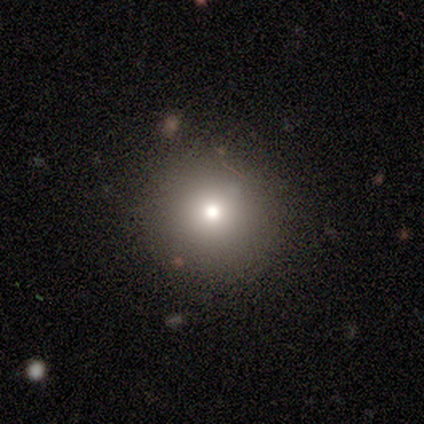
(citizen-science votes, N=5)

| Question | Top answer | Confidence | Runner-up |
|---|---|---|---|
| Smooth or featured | smooth | 60% | star or artifact (40%) |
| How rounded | round | 100% | — |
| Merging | none | 100% | — |